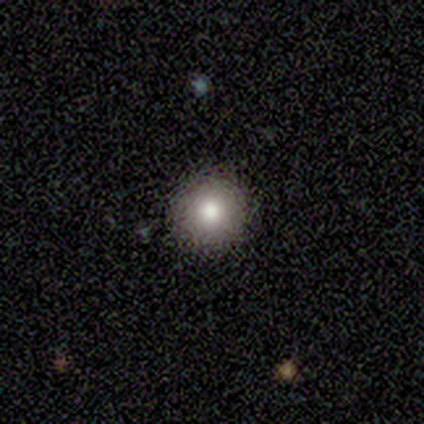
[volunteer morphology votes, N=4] Overall: smooth (100%). How rounded: round (100%). Merging: none (100%).